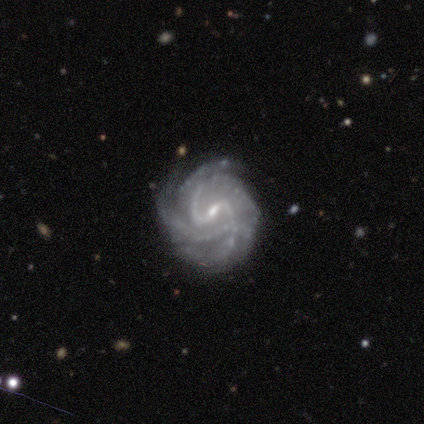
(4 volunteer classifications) featured or disk 75%, star or artifact 25%, smooth 0%. Down the decision tree: edge-on disk — no (100%); bar — weak (67%); spiral arms — yes (100%); spiral arm count — 2 (33%, tied with 3 and can't tell); spiral winding — medium (67%); bulge size — small (67%); merging — none (100%).